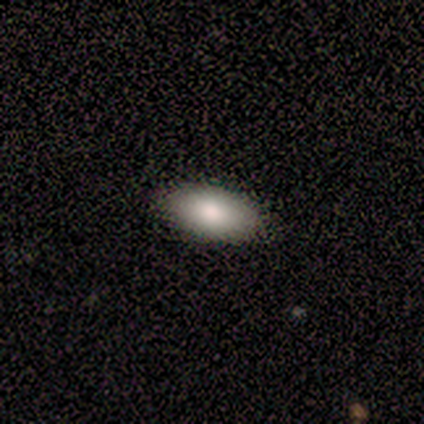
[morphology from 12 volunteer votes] Q: Smooth or featured?
A: smooth (75%); runner-up: featured or disk (17%)
Q: How rounded?
A: in between (78%); runner-up: cigar-shaped (22%)
Q: Merging?
A: none (91%); runner-up: major disturbance (9%)